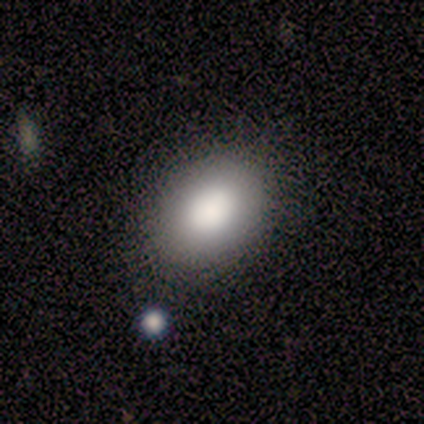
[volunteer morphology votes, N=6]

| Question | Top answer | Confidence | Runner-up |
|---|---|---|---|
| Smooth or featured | smooth | 100% | — |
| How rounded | in between | 83% | round (17%) |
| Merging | none | 83% | minor disturbance (17%) |